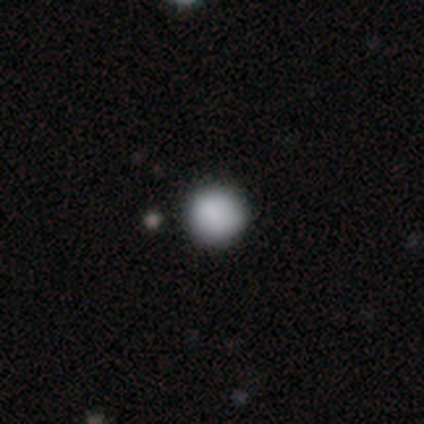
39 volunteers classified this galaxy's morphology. This appears to be a smooth galaxy with no disk features (82%) that is round (100%). Merging: none (94%).